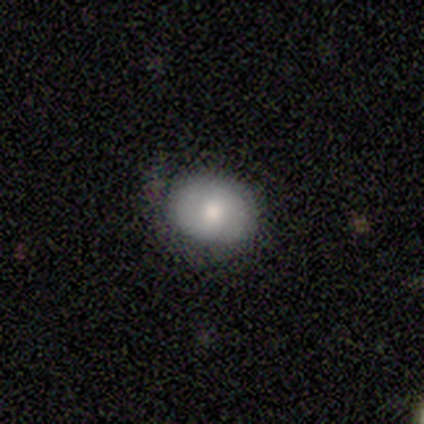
A smooth galaxy with no disk features (66%) that is in between round and cigar-shaped (58%).

Vote fractions:
- Smooth or featured? smooth: 66% / featured or disk: 26% / star or artifact: 8%
- How rounded? in between: 58% / round: 42% / cigar-shaped: 0%
- Merging? none: 34% / minor disturbance: 7% / major disturbance: 7% / merger: 1%